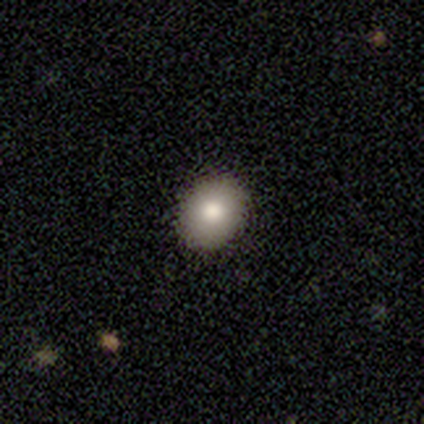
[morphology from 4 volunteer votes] smooth_or_featured: smooth (p=0.75) [alt: star or artifact p=0.25]
how_rounded: round (p=0.67) [alt: in between p=0.33]
merging: none (p=1.00)